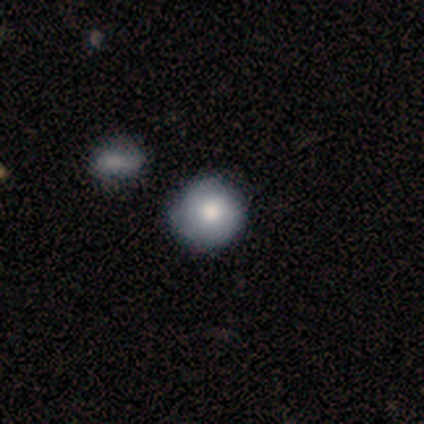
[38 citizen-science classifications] Q: Smooth or featured?
A: smooth (79%); runner-up: featured or disk (18%)
Q: How rounded?
A: round (93%); runner-up: in between (7%)
Q: Merging?
A: none (81%); runner-up: minor disturbance (14%)